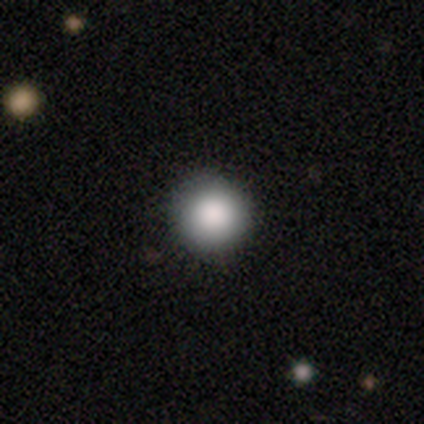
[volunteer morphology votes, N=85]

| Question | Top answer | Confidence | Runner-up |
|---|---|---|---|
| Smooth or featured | smooth | 84% | star or artifact (11%) |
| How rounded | round | 97% | in between (3%) |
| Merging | none | 93% | minor disturbance (4%) |